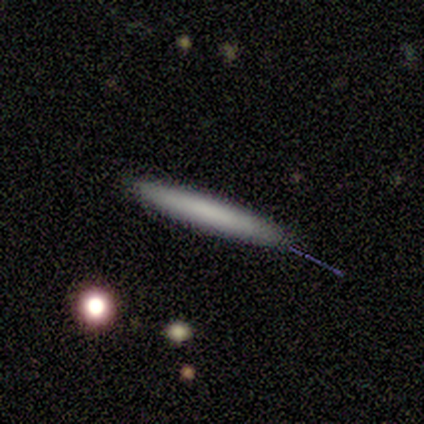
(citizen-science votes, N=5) A smooth galaxy with no disk features (80%) that is cigar-shaped (100%).

Vote fractions:
- Smooth or featured? smooth: 80% / featured or disk: 20% / star or artifact: 0%
- How rounded? cigar-shaped: 100% / round: 0% / in between: 0%
- Merging? none: 100% / minor disturbance: 0% / major disturbance: 0% / merger: 0%